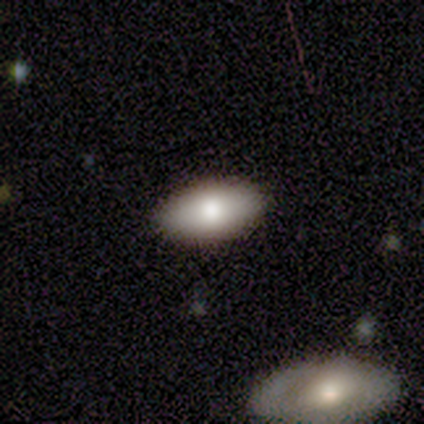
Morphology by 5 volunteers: A smooth galaxy with no disk features (100%) that is in between round and cigar-shaped (80%).

Vote fractions:
- Smooth or featured? smooth: 100% / featured or disk: 0% / star or artifact: 0%
- How rounded? in between: 80% / cigar-shaped: 20% / round: 0%
- Merging? none: 100% / minor disturbance: 0% / major disturbance: 0% / merger: 0%